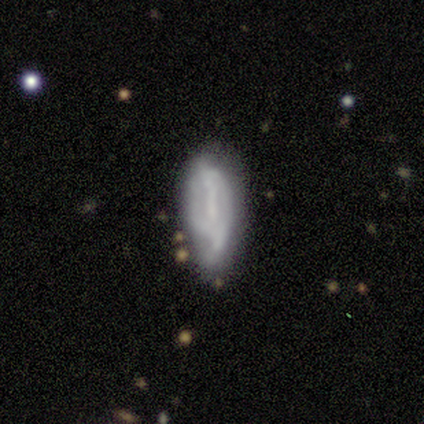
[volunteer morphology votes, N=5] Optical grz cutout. It shows a featured or disk galaxy (60%) with a strong bar (50%, tied with no), tight (100%) spiral arms (50%, tied with no) and a dominant central bulge (50%, tied with none). Merging: minor disturbance (80%).